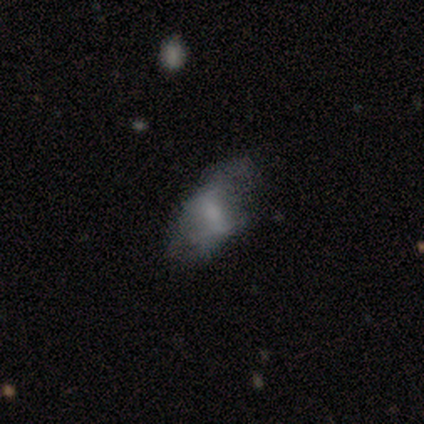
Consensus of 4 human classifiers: Smooth or featured? 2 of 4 (50%, tied with featured or disk) said smooth. How rounded? 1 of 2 (50%, tied with in between) said round. Merging? 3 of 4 (75%) said minor disturbance.